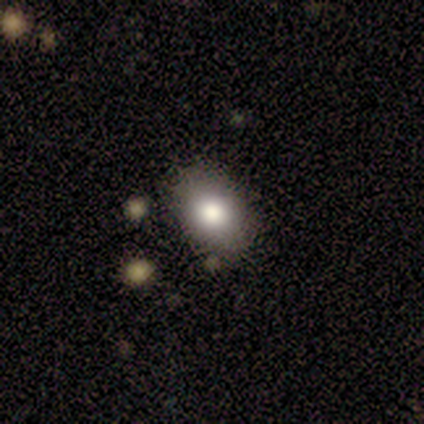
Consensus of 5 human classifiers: A smooth galaxy with no disk features (80%) that is in between round and cigar-shaped (100%).

Vote fractions:
- Smooth or featured? smooth: 80% / star or artifact: 20% / featured or disk: 0%
- How rounded? in between: 100% / round: 0% / cigar-shaped: 0%
- Merging? none: 75% / minor disturbance: 25% / major disturbance: 0% / merger: 0%